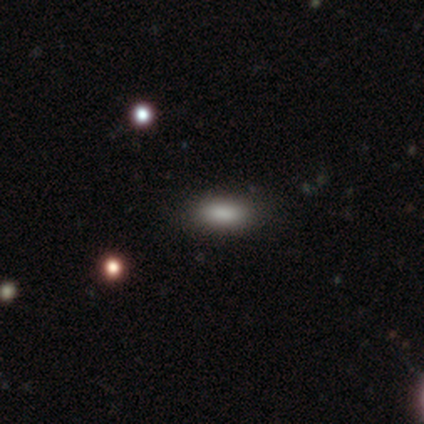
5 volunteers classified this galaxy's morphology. Smooth or featured? 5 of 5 (100%) said smooth. How rounded? 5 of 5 (100%) said in between. Merging? 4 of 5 (80%) said none.